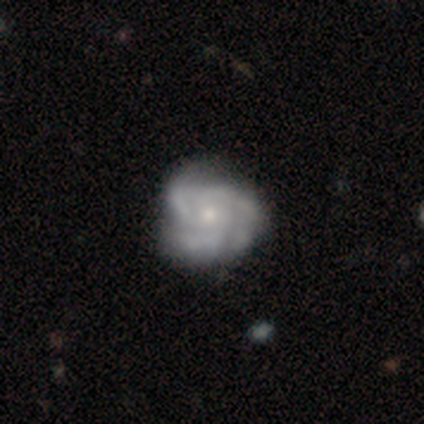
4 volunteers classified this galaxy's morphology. Smooth or featured? 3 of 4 (75%) said featured or disk. Edge-on disk? 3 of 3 (100%) said no. Bar? 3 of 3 (100%) said no. Spiral arms? 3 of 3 (100%) said yes. Spiral winding? 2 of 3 (67%) said tight. Spiral arm count? 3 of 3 (100%) said 3. Bulge size? 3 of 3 (100%) said small. Merging? 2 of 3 (67%) said none.